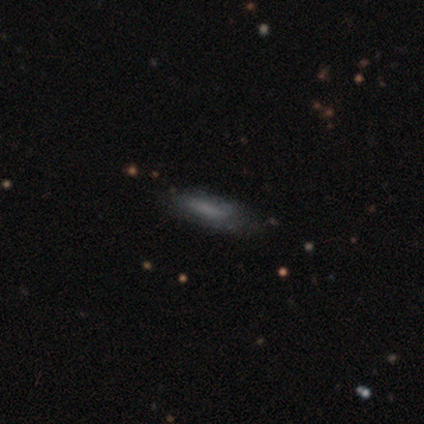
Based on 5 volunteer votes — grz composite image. It shows a featured or disk galaxy (60%) with no bar (100%), 1 (100%) loose (100%) spiral arms (50%, tied with no) and no central bulge (100%). Merging: none (60%).